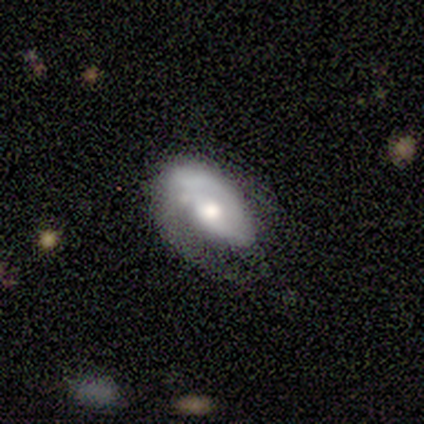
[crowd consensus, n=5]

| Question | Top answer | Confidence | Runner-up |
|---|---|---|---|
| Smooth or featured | featured or disk | 100% | — |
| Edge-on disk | no | 100% | — |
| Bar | no | 80% | strong (20%) |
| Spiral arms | yes | 80% | no (20%) |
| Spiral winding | tight | 75% | loose (25%) |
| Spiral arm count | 1 | 75% | 2 (25%) |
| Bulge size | moderate | 100% | — |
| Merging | none | 60% | minor disturbance (20%) |